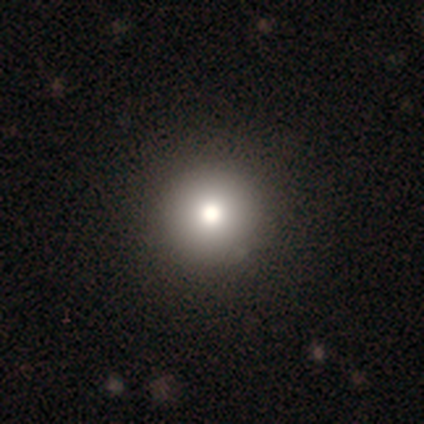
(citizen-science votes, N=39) smooth-or-featured: smooth: 90% | featured or disk: 10% | star or artifact: 0%
  how-rounded: round: 91% | in between: 9% | cigar-shaped: 0%
  merging: none: 51% | minor disturbance: 8% | merger: 5% | major disturbance: 0%